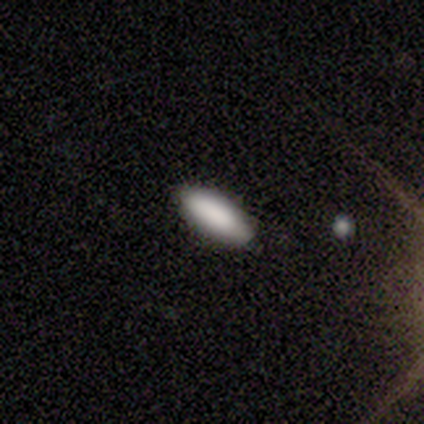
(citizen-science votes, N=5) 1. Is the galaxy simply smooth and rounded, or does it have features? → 100% smooth, 0% featured or disk, 0% star or artifact.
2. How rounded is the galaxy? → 80% in between, 20% cigar-shaped, 0% round.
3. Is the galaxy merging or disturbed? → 100% none, 0% minor disturbance, 0% major disturbance, 0% merger.